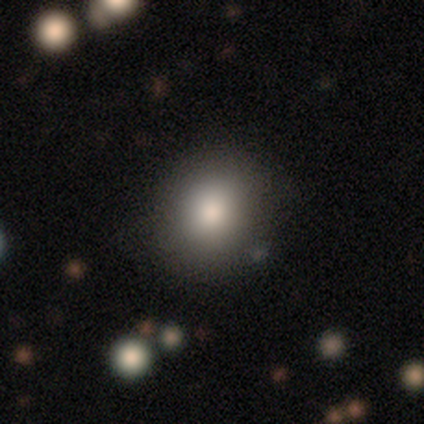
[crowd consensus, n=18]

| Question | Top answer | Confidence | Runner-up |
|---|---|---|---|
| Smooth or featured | smooth | 78% | featured or disk (17%) |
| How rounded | round | 86% | in between (14%) |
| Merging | none | 82% | minor disturbance (18%) |